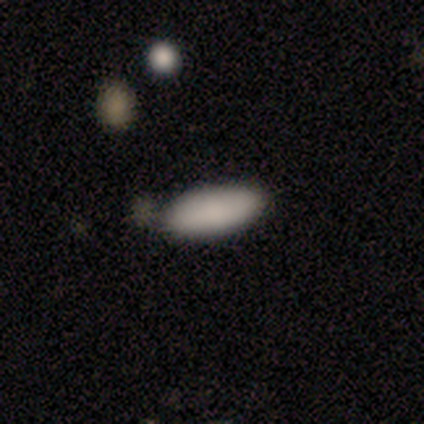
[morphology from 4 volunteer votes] smooth-or-featured: smooth: 100% | featured or disk: 0% | star or artifact: 0%
  how-rounded: cigar-shaped: 75% | in between: 25% | round: 0%
  merging: none: 100% | minor disturbance: 0% | major disturbance: 0% | merger: 0%